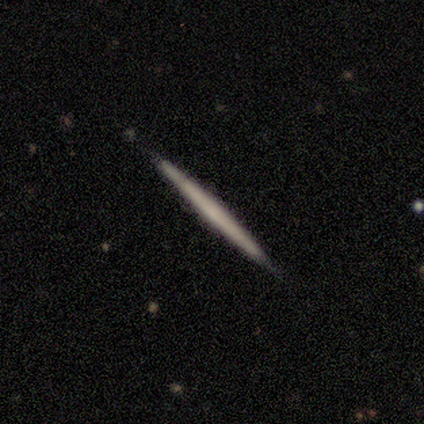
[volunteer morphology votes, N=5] A featured or disk galaxy (80%) viewed edge-on (100%) with no central bulge (100%). Merging: none (80%).